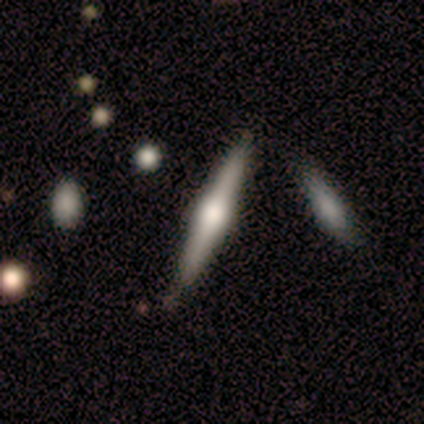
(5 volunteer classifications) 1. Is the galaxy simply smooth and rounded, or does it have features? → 40% smooth (tied), 40% featured or disk (tied), 20% star or artifact.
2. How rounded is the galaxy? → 100% cigar-shaped, 0% round, 0% in between.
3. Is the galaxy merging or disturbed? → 75% none, 25% merger, 0% minor disturbance, 0% major disturbance.